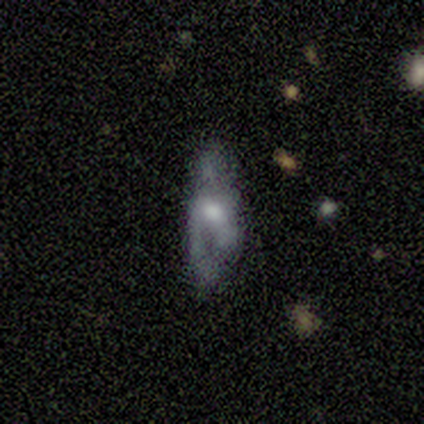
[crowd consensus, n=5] Volunteers were most divided on "edge-on bulge": rounded: 67%, boxy: 33%, none: 0%. More confident: smooth or featured — featured or disk (80%); merging — minor disturbance (80%); edge-on disk — yes (75%).